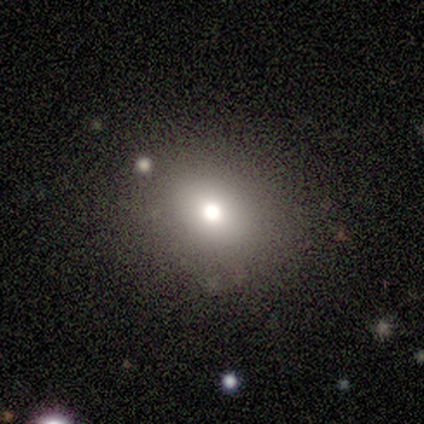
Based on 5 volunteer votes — smooth_or_featured: smooth (p=1.00)
how_rounded: round (p=0.60) [alt: in between p=0.40]
merging: none (p=0.80) [alt: major disturbance p=0.20]